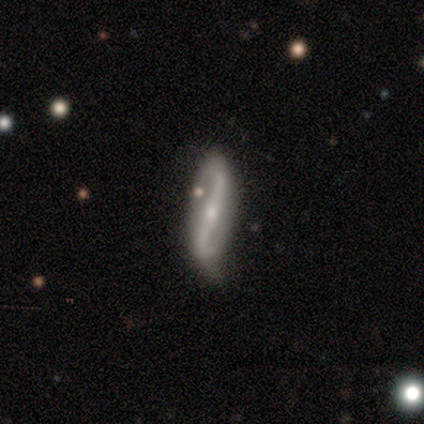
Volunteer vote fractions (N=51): A featured or disk galaxy (88%) with a strong bar (61%), 2 (100%) loose (76%) spiral arms (100%) and a small central bulge (82%). Merging: none (74%).